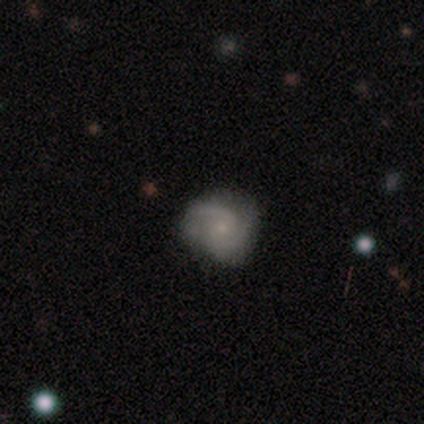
A featured or disk galaxy (75%) with no bar (67%), 2 (100%) medium (67%) spiral arms (100%) and a small central bulge (100%).

Vote fractions:
- Smooth or featured? featured or disk: 75% / smooth: 25% / star or artifact: 0%
- Edge-on disk? no: 100% / yes: 0%
- Bar? no: 67% / strong: 33% / weak: 0%
- Spiral arms? yes: 100% / no: 0%
- Spiral winding? medium: 67% / tight: 33% / loose: 0%
- Spiral arm count? 2: 100% / 1: 0% / 3: 0% / 4: 0% / more than 4: 0% / can't tell: 0%
- Bulge size? small: 100% / dominant: 0% / large: 0% / moderate: 0% / none: 0%
- Merging? none: 75% / minor disturbance: 25% / major disturbance: 0% / merger: 0%